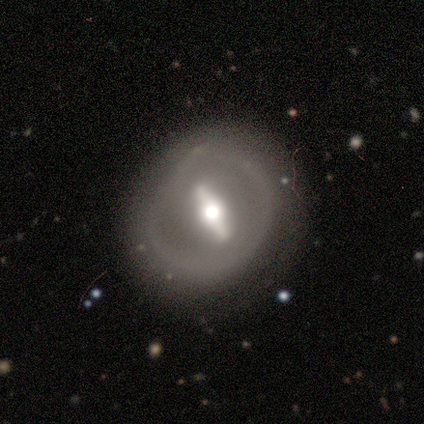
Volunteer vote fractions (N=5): Smooth or featured? featured or disk (80%)
Edge-on disk? no (75%)
Bar? strong (100%)
Spiral arms? no (100%)
Bulge size? small (67%)
Merging? none (50%, tied with minor disturbance)